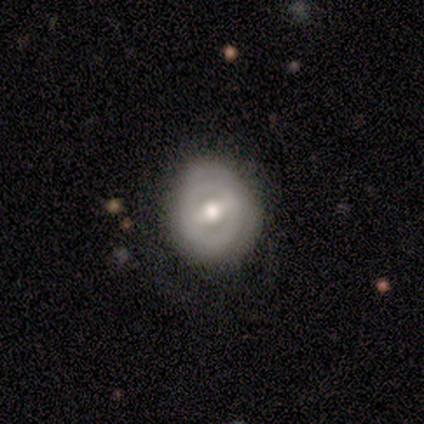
This is possibly a smooth galaxy (50%, tied with featured or disk). How rounded: possibly round (50%, tied with in between). Merging: likely none (75%).